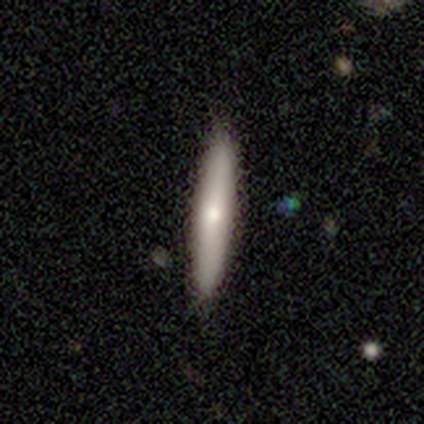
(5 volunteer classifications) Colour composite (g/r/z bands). It shows a smooth galaxy with no disk features (60%) that is cigar-shaped (100%). Merging: none (100%).